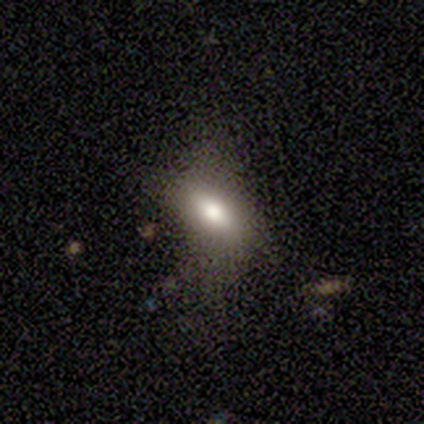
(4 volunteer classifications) smooth_or_featured: smooth (p=0.50) [tied with: featured or disk p=0.50]
how_rounded: in between (p=0.50) [tied with: cigar-shaped p=0.50]
merging: none (p=0.50) [alt: minor disturbance p=0.25]